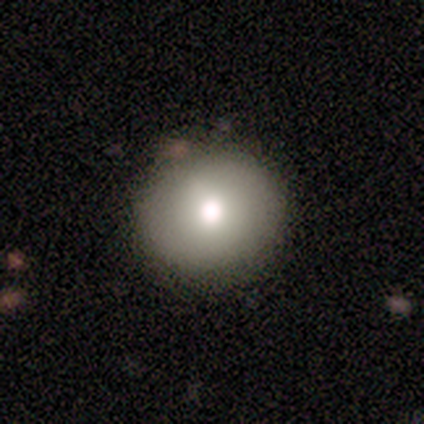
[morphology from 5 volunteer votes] type=smooth (60%); roundness=round (100%); merging=none (60%).